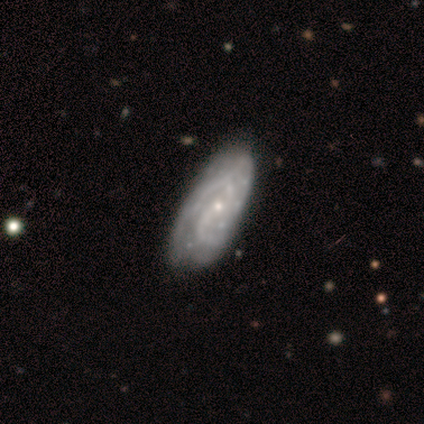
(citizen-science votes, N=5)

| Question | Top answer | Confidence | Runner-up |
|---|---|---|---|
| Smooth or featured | featured or disk | 80% | smooth (20%) |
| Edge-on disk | no | 100% | — |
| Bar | no | 75% | weak (25%) |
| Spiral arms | yes | 100% | — |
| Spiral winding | tight | 75% | medium (25%) |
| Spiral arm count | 2 | 100% | — |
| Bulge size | small | 75% | moderate (25%) |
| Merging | none | 60% | minor disturbance (40%) |